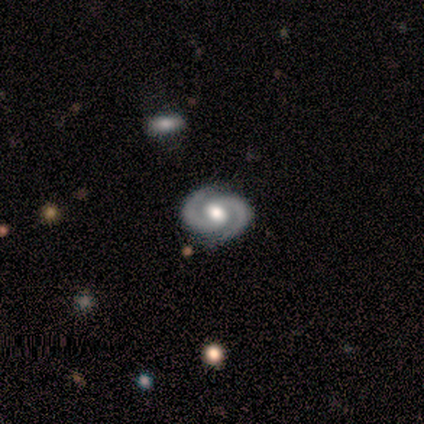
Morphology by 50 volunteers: type=featured or disk (92%); edge-on=no (96%); bar=weak (48%); spiral arms=yes (100%); winding=tight (50%); arm count=2 (100%); bulge=moderate (50%); merging=none (92%).